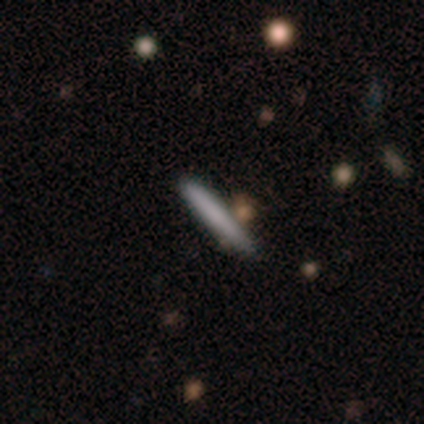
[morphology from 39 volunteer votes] type=smooth (72%); roundness=cigar-shaped (100%); merging=none (82%).